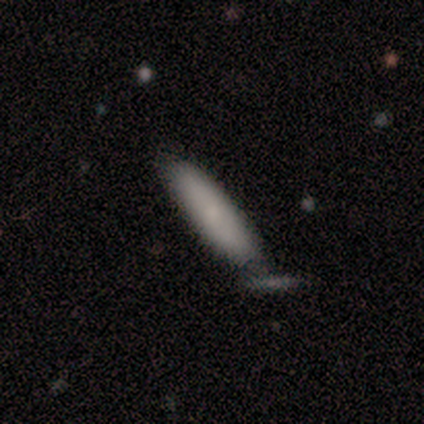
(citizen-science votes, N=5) This appears to be a smooth galaxy with no disk features (80%) that is cigar-shaped (75%). Merging: none (60%).